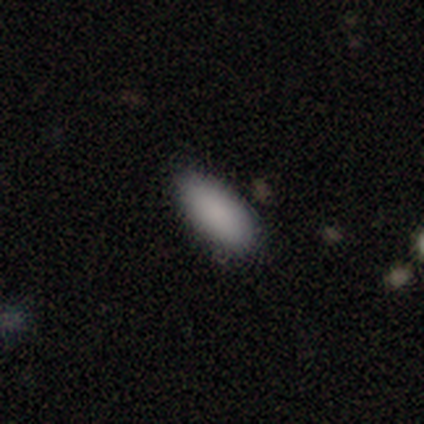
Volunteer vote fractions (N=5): A smooth galaxy with no disk features (100%) that is in between round and cigar-shaped (100%).

Vote fractions:
- Smooth or featured? smooth: 100% / featured or disk: 0% / star or artifact: 0%
- How rounded? in between: 100% / round: 0% / cigar-shaped: 0%
- Merging? none: 100% / minor disturbance: 0% / major disturbance: 0% / merger: 0%